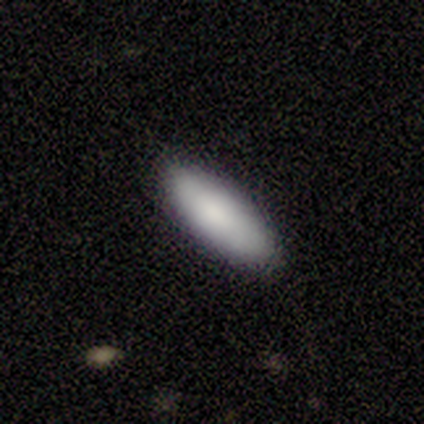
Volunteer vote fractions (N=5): smooth-or-featured: smooth: 100% | featured or disk: 0% | star or artifact: 0%
  how-rounded: in between: 80% | cigar-shaped: 20% | round: 0%
  merging: none: 80% | major disturbance: 20% | minor disturbance: 0% | merger: 0%